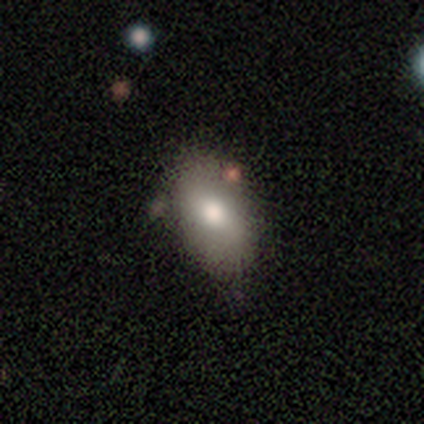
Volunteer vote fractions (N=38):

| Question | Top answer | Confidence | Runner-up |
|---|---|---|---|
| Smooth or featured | smooth | 74% | featured or disk (18%) |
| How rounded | in between | 93% | round (7%) |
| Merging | none | 51% | minor disturbance (43%) |